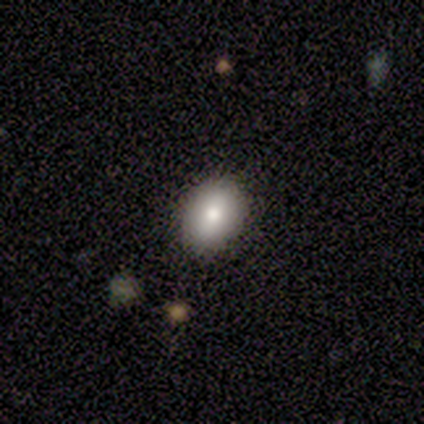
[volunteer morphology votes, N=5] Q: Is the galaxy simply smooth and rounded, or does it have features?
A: smooth — 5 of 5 (100%).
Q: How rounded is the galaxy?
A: in between — 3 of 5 (60%).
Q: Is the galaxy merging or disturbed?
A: none — 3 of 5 (60%).